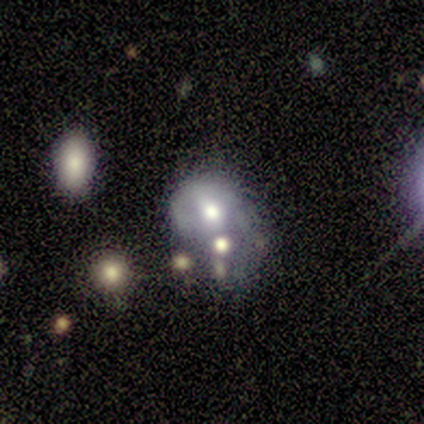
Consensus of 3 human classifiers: Smooth or featured?
  - smooth: 33% * (tied)
  - featured or disk: 33% * (tied)
  - star or artifact: 33% * (tied)
How rounded?
  - in between: 100% *
  - round: 0%
  - cigar-shaped: 0%
Merging?
  - none: 50% * (tied)
  - minor disturbance: 50% * (tied)
  - major disturbance: 0%
  - merger: 0%